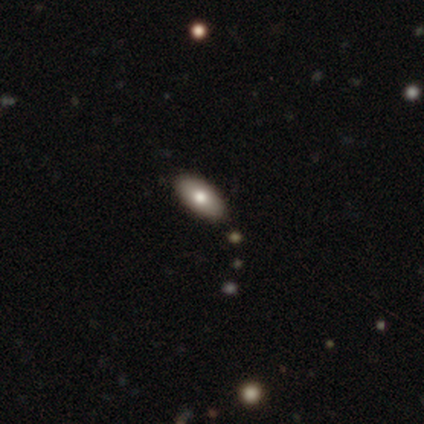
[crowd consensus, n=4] A smooth galaxy with no disk features (75%) that is in between round and cigar-shaped (67%). Merging: none (50%).